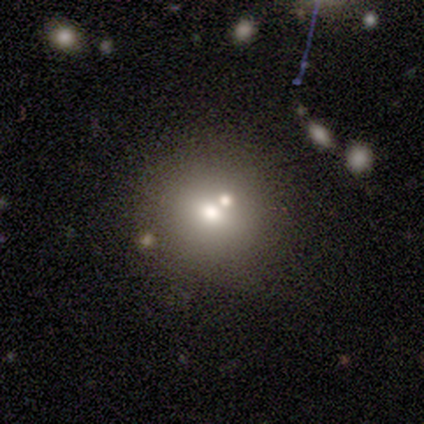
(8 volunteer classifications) Q: Smooth or featured?
A: smooth (62%); runner-up: star or artifact (25%)
Q: How rounded?
A: round (60%); runner-up: in between (40%)
Q: Merging?
A: none (33%); tied with: major disturbance (33%); merger (33%)